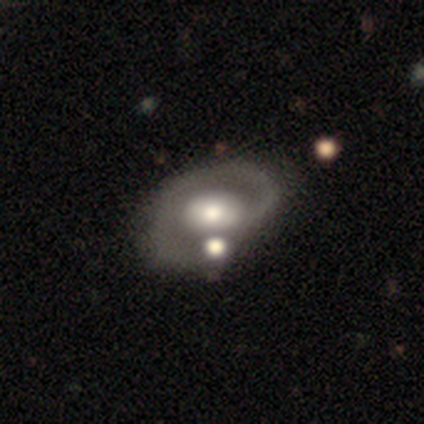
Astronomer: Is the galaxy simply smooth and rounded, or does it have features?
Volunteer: featured or disk — 50%, tied with star or artifact at 50%.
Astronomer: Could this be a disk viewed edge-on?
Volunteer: no — 100%.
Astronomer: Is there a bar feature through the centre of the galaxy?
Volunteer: strong — 50%, tied with no at 50%.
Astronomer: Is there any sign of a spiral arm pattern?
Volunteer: yes — 100%.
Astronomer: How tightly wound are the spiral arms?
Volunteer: tight — 100%.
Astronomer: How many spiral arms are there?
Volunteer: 1 — 100%.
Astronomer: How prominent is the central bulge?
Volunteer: large — 50%, tied with small at 50%.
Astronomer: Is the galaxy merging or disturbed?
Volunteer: minor disturbance — 100%.